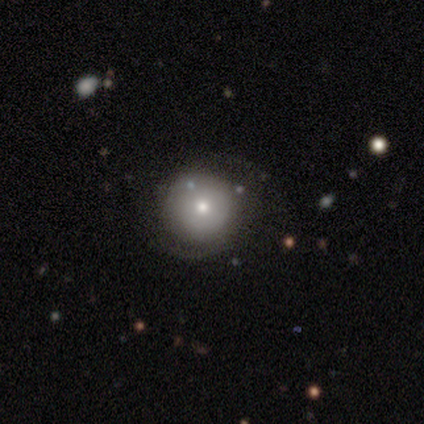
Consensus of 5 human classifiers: This appears to be a smooth galaxy with no disk features (60%) that is round (100%). Merging: none (60%).